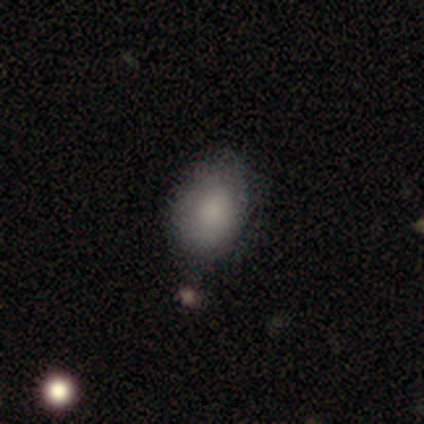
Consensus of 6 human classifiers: Overall: smooth (83%). How rounded: in between (80%). Merging: none (100%).